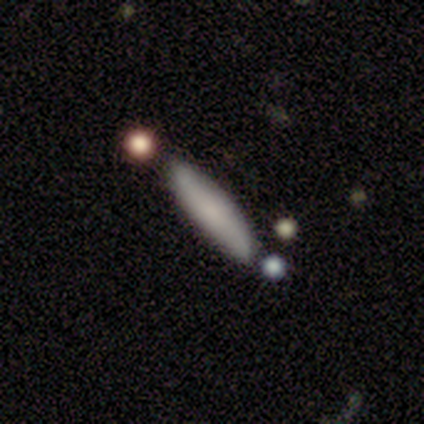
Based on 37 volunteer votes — Volunteers were most divided on "smooth or featured": smooth: 73%, featured or disk: 19%, star or artifact: 8%. More confident: how rounded — cigar-shaped (93%); merging — none (88%).